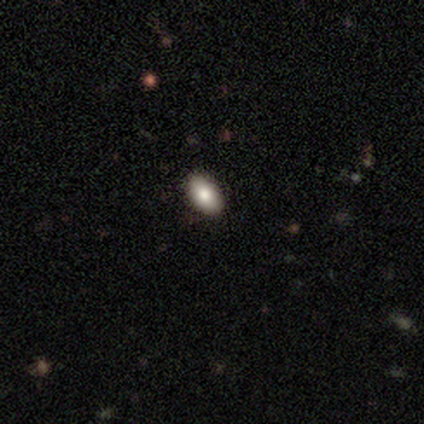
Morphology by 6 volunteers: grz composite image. It shows a smooth galaxy with no disk features (83%) that is in between round and cigar-shaped (80%). Merging: none (80%).